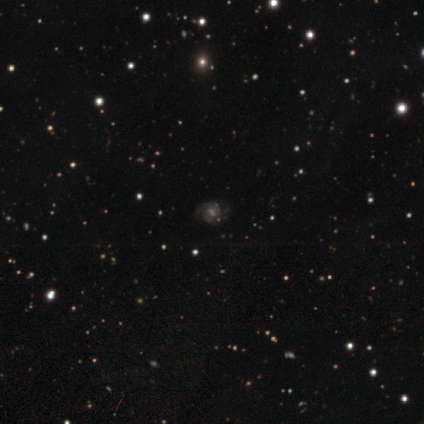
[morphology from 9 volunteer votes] Overall: featured or disk (78%). Edge-on disk: no (100%). Bar: weak (57%; strong 29%). Spiral arms: yes (100%). Spiral arm count: 2 (71%). Spiral winding: medium (86%). Bulge size: moderate (57%; small 43%). Merging: none (67%; minor disturbance 33%).